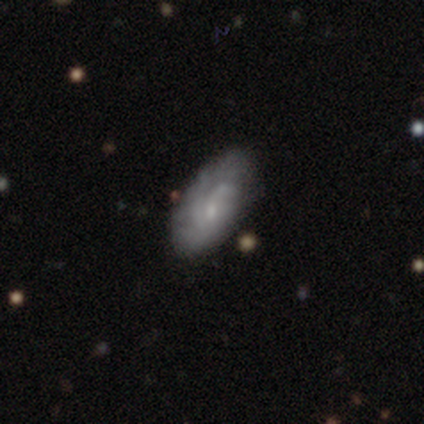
Smooth or featured?
  - smooth: 60% *
  - featured or disk: 40%
  - star or artifact: 0%
How rounded?
  - in between: 100% *
  - round: 0%
  - cigar-shaped: 0%
Merging?
  - minor disturbance: 60% *
  - none: 40%
  - major disturbance: 0%
  - merger: 0%